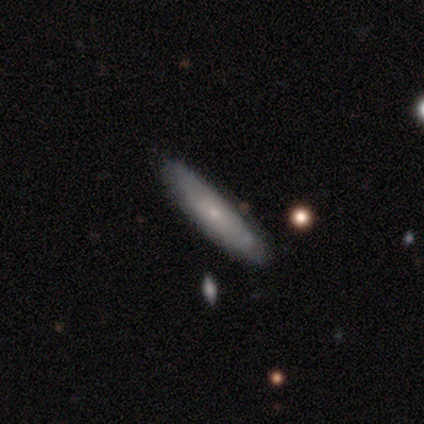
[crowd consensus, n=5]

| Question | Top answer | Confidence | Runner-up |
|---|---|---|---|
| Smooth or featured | smooth | 60% | featured or disk (40%) |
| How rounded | cigar-shaped | 100% | — |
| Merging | none | 80% | minor disturbance (20%) |